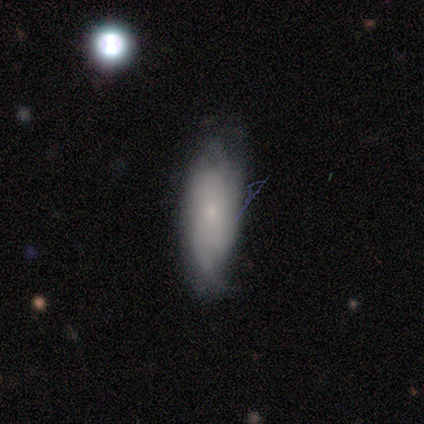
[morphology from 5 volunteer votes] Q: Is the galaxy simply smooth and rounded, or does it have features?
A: smooth — 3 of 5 (60%).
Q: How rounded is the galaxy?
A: in between — 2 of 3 (67%).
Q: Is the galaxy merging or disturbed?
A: none — 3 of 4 (75%).